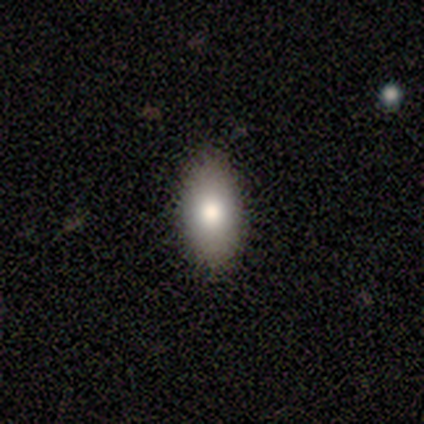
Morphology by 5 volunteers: This is likely a smooth galaxy (60%). How rounded: clearly in between (100%). Merging: clearly none (100%).